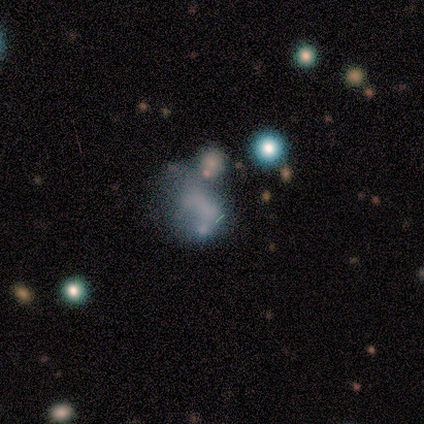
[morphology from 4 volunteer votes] Smooth or featured: smooth — 50% (featured or disk — 25%)
How rounded: round — 50% (tied with in between — 50%)
Merging: merger — 67% (minor disturbance — 33%)